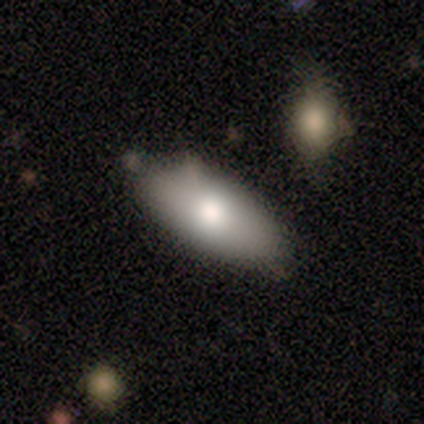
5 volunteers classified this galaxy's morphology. Overall: smooth (80%). How rounded: in between (100%). Merging: none (80%).